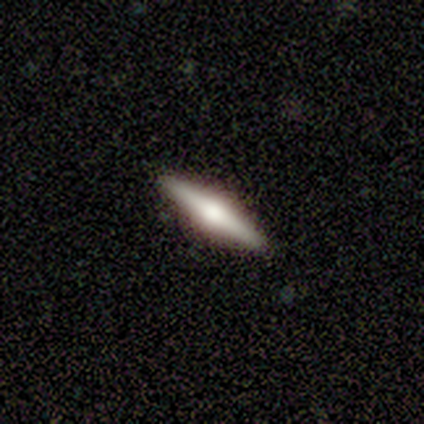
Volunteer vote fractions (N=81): Smooth or featured: featured or disk — 80% (smooth — 16%)
Edge-on disk: yes — 97% (no — 3%)
Edge-on bulge: rounded — 97% (boxy — 3%)
Merging: none — 97% (minor disturbance — 3%)